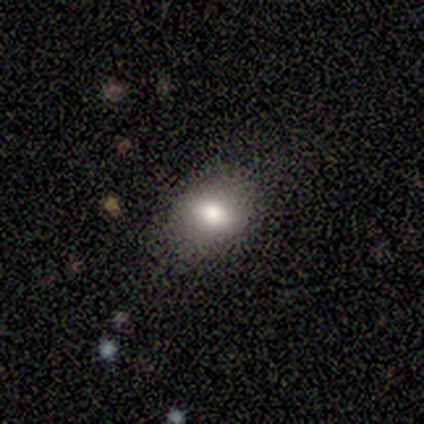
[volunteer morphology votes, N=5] This appears to be a smooth galaxy with no disk features (80%) that is in between round and cigar-shaped (50%). Merging: none (60%).